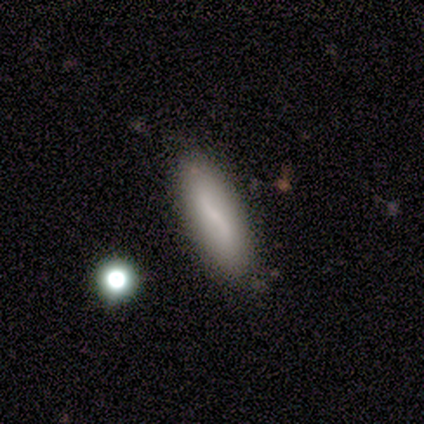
Smooth or featured? 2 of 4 (50%, tied with featured or disk) said smooth. How rounded? 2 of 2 (100%) said cigar-shaped. Merging? 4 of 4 (100%) said none.